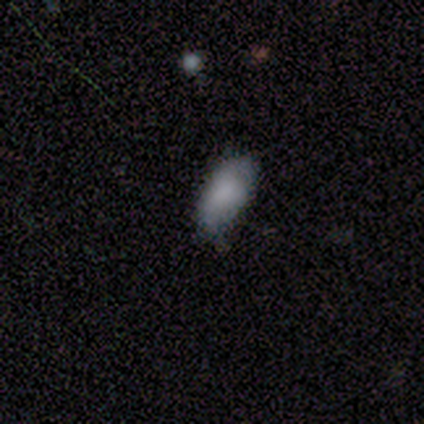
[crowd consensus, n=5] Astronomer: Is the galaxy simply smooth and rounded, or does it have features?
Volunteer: smooth — 100%.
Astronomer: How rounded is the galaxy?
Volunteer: in between — 100%.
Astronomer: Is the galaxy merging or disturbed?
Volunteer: none — 100%.